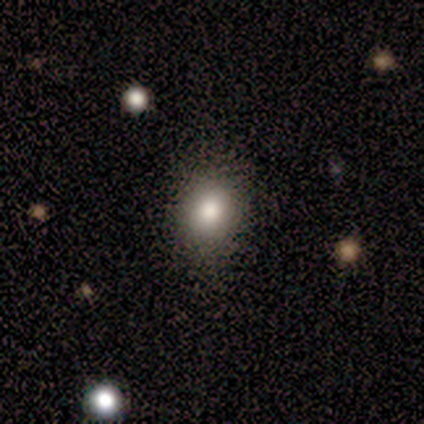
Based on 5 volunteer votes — Smooth or featured? 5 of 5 (100%) said smooth. How rounded? 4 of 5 (80%) said in between. Merging? 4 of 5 (80%) said none.